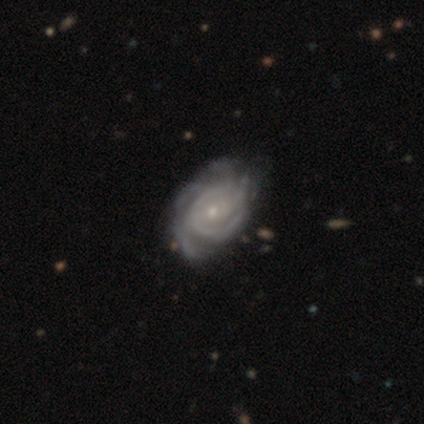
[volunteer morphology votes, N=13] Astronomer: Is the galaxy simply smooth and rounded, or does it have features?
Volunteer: featured or disk — 92%.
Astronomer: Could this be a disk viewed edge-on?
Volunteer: no — 100%.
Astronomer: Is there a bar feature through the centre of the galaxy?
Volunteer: no — 75%.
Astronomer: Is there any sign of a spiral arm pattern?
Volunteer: yes — 100%.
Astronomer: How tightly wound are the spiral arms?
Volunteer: tight — 83%.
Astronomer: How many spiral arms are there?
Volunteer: more than 4 — 58%.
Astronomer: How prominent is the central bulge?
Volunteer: small — 83%.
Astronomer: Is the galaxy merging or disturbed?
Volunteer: none — 69%.